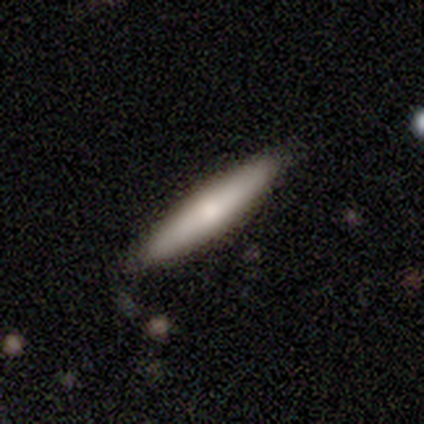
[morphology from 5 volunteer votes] type=smooth (100%); roundness=cigar-shaped (100%); merging=none (80%).